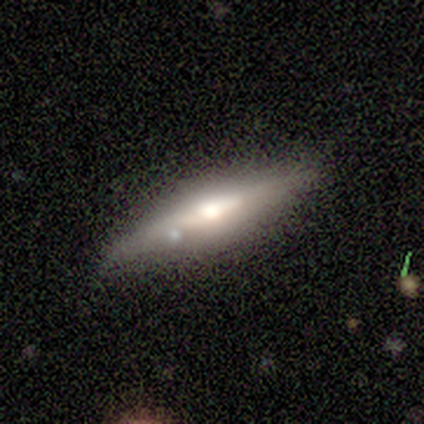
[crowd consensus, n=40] This is likely a featured or disk galaxy (62%). It is clearly viewed edge-on (100%). Edge-on bulge: clearly rounded (84%). Merging: clearly none (86%).